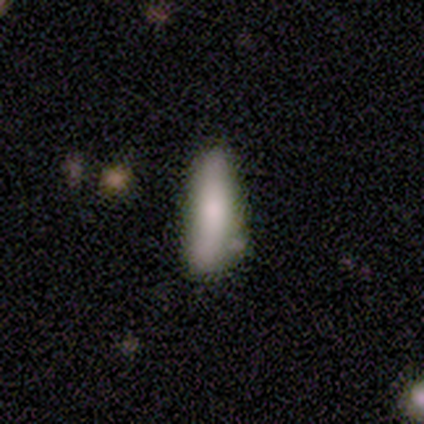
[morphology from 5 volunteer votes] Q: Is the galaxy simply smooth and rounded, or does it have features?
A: smooth — 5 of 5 (100%).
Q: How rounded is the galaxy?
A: cigar-shaped — 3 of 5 (60%).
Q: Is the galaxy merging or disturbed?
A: minor disturbance — 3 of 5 (60%).